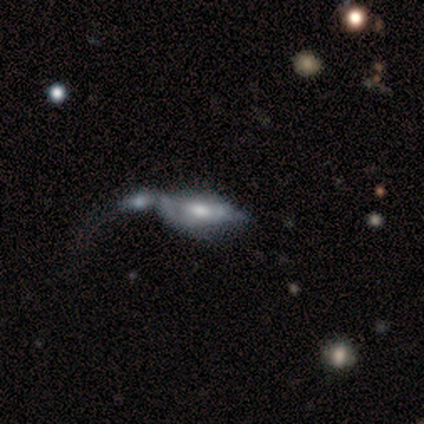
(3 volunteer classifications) Smooth or featured: featured or disk — 67% (smooth — 33%)
Edge-on disk: yes — 50% (tied with no — 50%)
Edge-on bulge: rounded — 100%
Merging: merger — 67% (none — 33%)